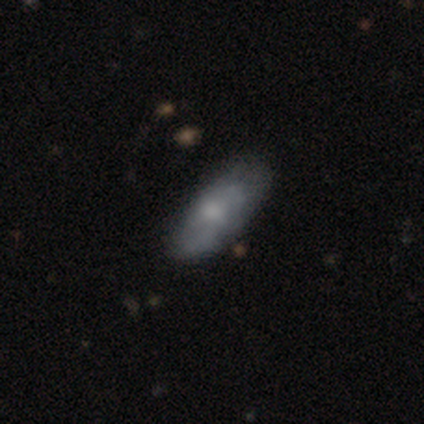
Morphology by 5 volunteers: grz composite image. It shows a smooth galaxy with no disk features (80%) that is in between round and cigar-shaped (75%). Merging: none (60%).